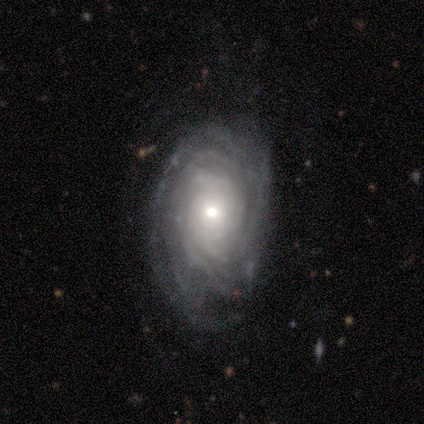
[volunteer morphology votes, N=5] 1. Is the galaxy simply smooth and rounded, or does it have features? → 80% featured or disk, 20% smooth, 0% star or artifact.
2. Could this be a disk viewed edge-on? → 100% no, 0% yes.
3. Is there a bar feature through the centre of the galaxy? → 75% no, 25% weak, 0% strong.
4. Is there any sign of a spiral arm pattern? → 100% yes, 0% no.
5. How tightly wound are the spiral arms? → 100% tight, 0% medium, 0% loose.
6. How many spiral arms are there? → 50% more than 4, 25% 4, 25% can't tell, 0% 1, 0% 2, 0% 3.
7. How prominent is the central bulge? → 50% moderate (tied), 50% small (tied), 0% dominant, 0% large, 0% none.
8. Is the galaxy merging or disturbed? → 80% none, 20% major disturbance, 0% minor disturbance, 0% merger.